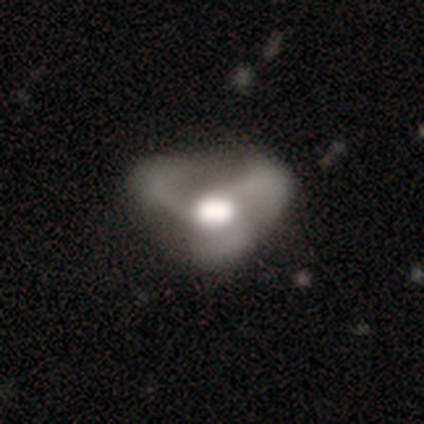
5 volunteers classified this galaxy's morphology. Smooth or featured?
  - featured or disk: 60% *
  - smooth: 20%
  - star or artifact: 20%
Edge-on disk?
  - no: 100% *
  - yes: 0%
Bar?
  - no: 67% *
  - weak: 33%
  - strong: 0%
Spiral arms?
  - yes: 67% *
  - no: 33%
Spiral winding?
  - loose: 100% *
  - tight: 0%
  - medium: 0%
Spiral arm count?
  - 3: 100% *
  - 1: 0%
  - 2: 0%
  - 4: 0%
  - more than 4: 0%
  - can't tell: 0%
Bulge size?
  - large: 100% *
  - dominant: 0%
  - moderate: 0%
  - small: 0%
  - none: 0%
Merging?
  - none: 50% * (tied)
  - major disturbance: 50% * (tied)
  - minor disturbance: 0%
  - merger: 0%